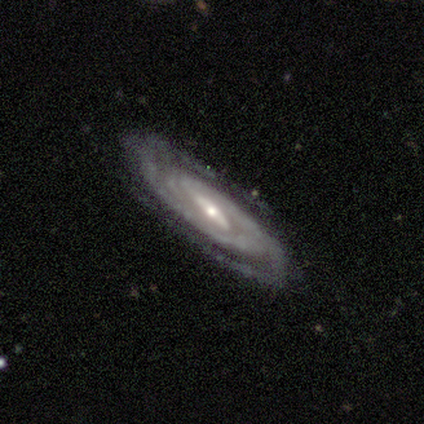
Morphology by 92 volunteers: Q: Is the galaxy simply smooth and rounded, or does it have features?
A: featured or disk — 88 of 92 (96%).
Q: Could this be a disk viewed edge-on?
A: no — 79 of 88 (90%).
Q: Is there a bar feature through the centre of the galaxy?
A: strong — 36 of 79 (46%).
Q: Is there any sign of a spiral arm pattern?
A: yes — 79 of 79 (100%).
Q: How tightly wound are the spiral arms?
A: tight — 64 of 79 (81%).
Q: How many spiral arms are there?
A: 2 — 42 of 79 (53%).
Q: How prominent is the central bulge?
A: small — 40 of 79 (51%).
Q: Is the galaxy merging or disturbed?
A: none — 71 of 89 (80%).